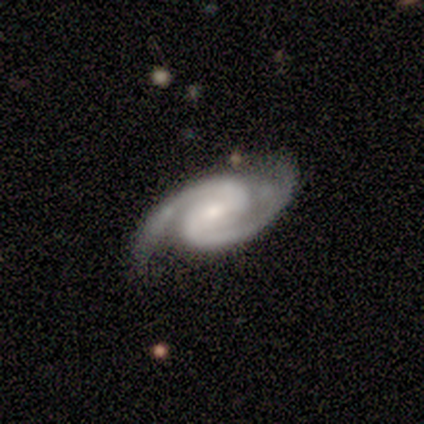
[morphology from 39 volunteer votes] type=featured or disk (97%); edge-on=no (97%); bar=weak (65%); spiral arms=yes (100%); winding=medium (51%); arm count=2 (95%); bulge=small (62%); merging=none (79%).